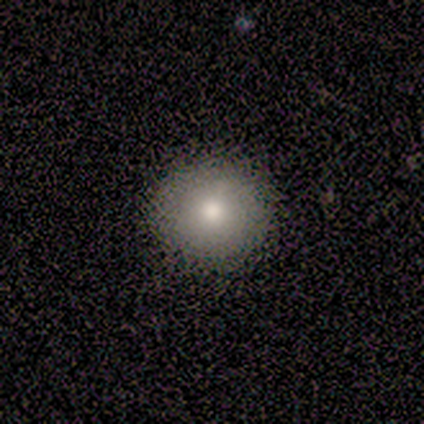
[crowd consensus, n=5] Smooth or featured: smooth — 100%
How rounded: round — 80% (in between — 20%)
Merging: none — 100%